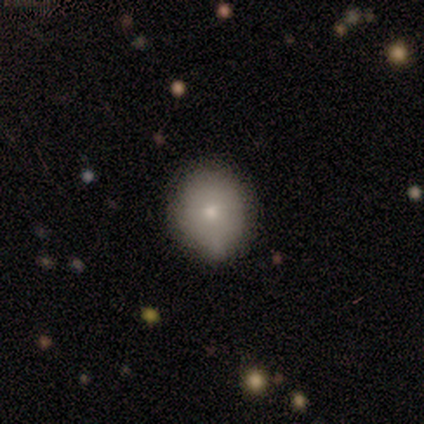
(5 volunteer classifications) Q: Smooth or featured?
A: smooth (100%)
Q: How rounded?
A: round (100%)
Q: Merging?
A: none (60%); runner-up: minor disturbance (20%)